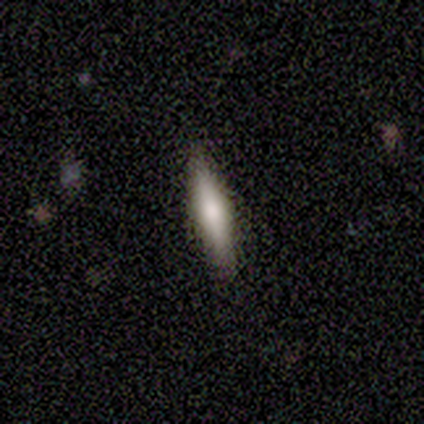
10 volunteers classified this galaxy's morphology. Smooth or featured? 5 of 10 (50%) said smooth. How rounded? 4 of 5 (80%) said cigar-shaped. Merging? 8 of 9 (89%) said none.